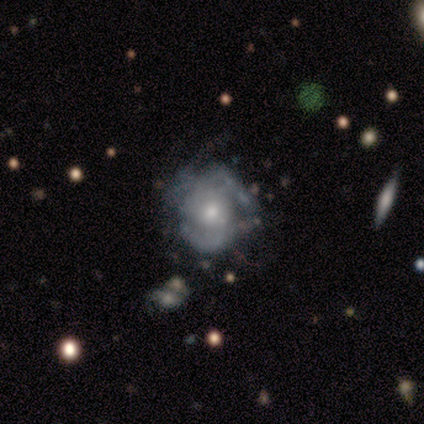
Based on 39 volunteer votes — This appears to be a featured or disk galaxy (79%) with no bar (80%), tight (45%, tied with medium) spiral arms (67%) and a moderate central bulge (63%). Merging: none (39%).